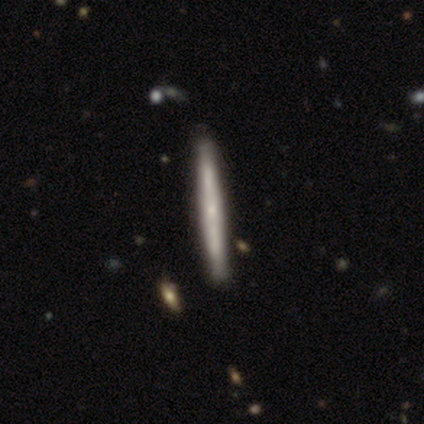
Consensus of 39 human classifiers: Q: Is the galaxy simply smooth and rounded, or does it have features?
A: featured or disk — 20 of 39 (51%).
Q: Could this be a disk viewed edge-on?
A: yes — 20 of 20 (100%).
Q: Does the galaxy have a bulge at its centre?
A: none — 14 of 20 (70%).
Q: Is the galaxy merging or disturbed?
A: none — 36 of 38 (95%).